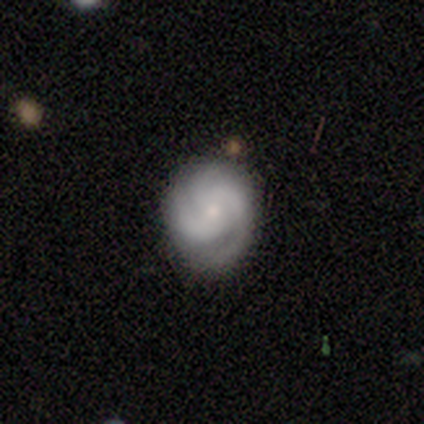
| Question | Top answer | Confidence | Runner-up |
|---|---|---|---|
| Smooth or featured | featured or disk | 100% | — |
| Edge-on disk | no | 100% | — |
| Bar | no | 80% | strong (20%) |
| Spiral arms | yes | 100% | — |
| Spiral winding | tight | 60% | loose (40%) |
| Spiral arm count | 3 | 60% | 2 (20%) |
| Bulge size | moderate | 60% | small (40%) |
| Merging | none | 100% | — |